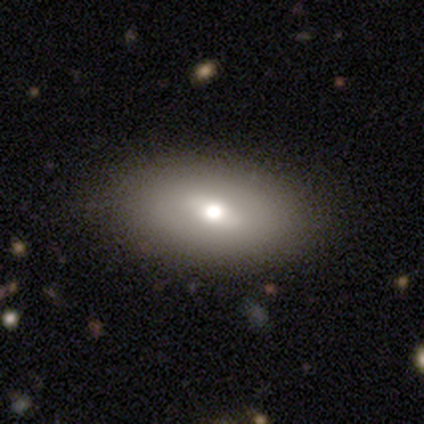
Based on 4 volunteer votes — A featured or disk galaxy (50%) with no bar (100%), no spiral arms (100%) and a moderate central bulge (50%, tied with small). Merging: none (100%).